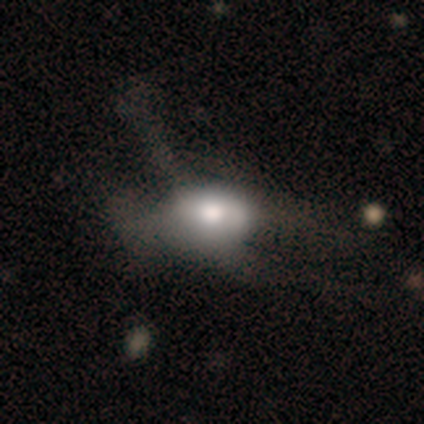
Smooth or featured? smooth (40%, tied with featured or disk)
How rounded? in between (100%)
Merging? none (50%)